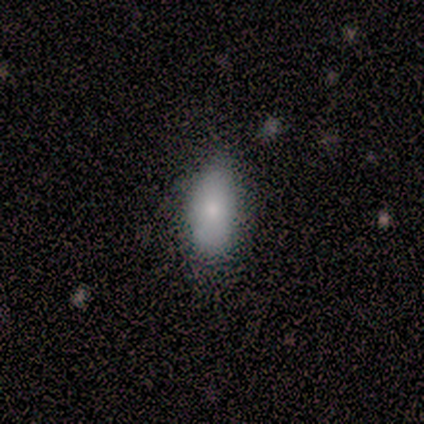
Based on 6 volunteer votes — This is clearly a smooth galaxy (83%). How rounded: clearly in between (80%). Merging: clearly none (80%).